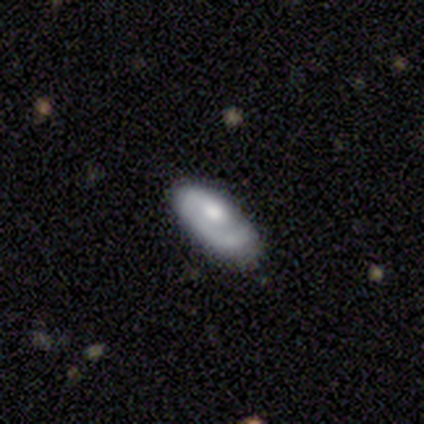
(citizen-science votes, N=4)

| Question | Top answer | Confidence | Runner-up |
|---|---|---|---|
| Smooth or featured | featured or disk | 75% | smooth (25%) |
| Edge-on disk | yes | 67% | no (33%) |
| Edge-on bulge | boxy | 50% | tied: rounded (50%) |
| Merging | none | 100% | — |